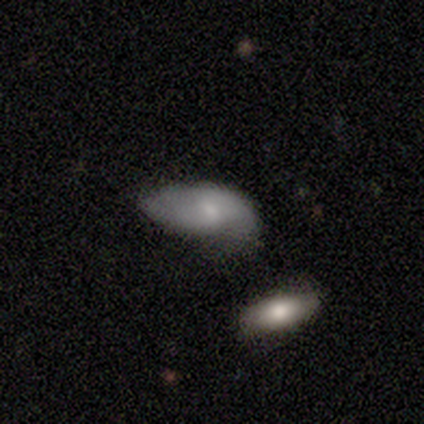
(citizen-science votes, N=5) Volunteers were most divided on "spiral winding" (3-way tie): tight: 33%, medium: 33%, loose: 33%. Remaining: spiral arms — yes (100%); smooth or featured — featured or disk (80%); edge-on disk — no (75%); bar — strong (67%); spiral arm count — 2 (67%); bulge size — small (67%); merging — major disturbance (40%).